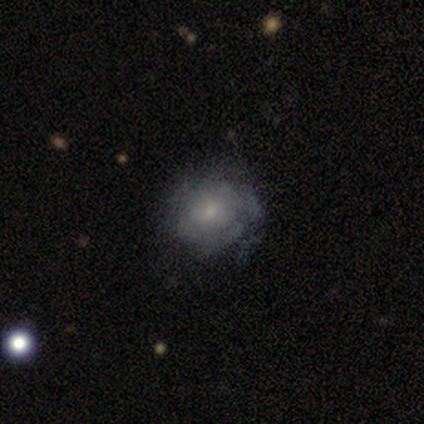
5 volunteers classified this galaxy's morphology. Smooth or featured?
  - featured or disk: 60% *
  - smooth: 40%
  - star or artifact: 0%
Edge-on disk?
  - no: 100% *
  - yes: 0%
Bar?
  - no: 100% *
  - strong: 0%
  - weak: 0%
Spiral arms?
  - yes: 100% *
  - no: 0%
Spiral winding?
  - medium: 67% *
  - loose: 33%
  - tight: 0%
Spiral arm count?
  - can't tell: 100% *
  - 1: 0%
  - 2: 0%
  - 3: 0%
  - 4: 0%
  - more than 4: 0%
Bulge size?
  - small: 100% *
  - dominant: 0%
  - large: 0%
  - moderate: 0%
  - none: 0%
Merging?
  - none: 60% *
  - minor disturbance: 40%
  - major disturbance: 0%
  - merger: 0%